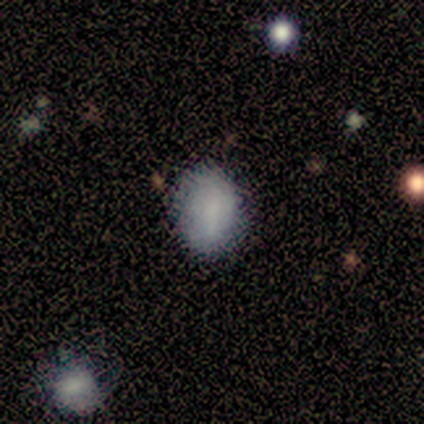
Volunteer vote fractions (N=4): smooth_or_featured: smooth (p=1.00)
how_rounded: in between (p=1.00)
merging: none (p=0.50) [tied with: minor disturbance p=0.50]